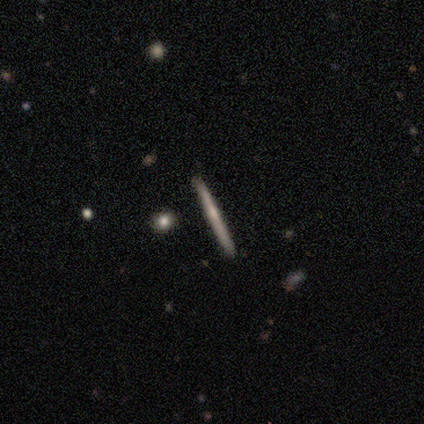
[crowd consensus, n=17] Smooth or featured? 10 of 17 (59%) said featured or disk. Edge-on disk? 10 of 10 (100%) said yes. Edge-on bulge? 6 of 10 (60%) said rounded. Merging? 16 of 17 (94%) said none.